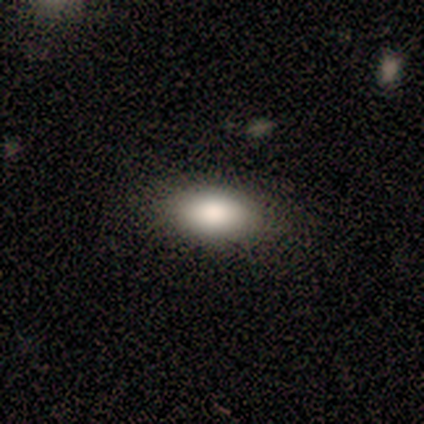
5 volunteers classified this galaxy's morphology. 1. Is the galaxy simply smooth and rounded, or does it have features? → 80% smooth, 20% featured or disk, 0% star or artifact.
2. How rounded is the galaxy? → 100% in between, 0% round, 0% cigar-shaped.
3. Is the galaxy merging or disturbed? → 60% none, 40% minor disturbance, 0% major disturbance, 0% merger.